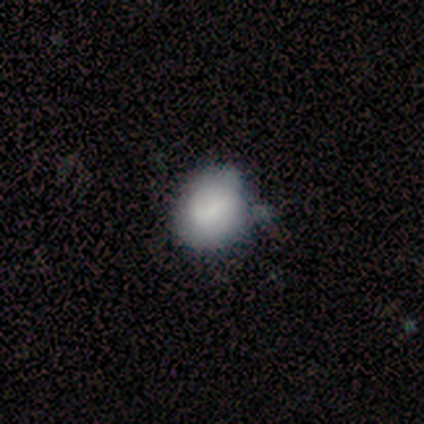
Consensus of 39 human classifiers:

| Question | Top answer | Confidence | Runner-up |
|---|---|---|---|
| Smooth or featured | smooth | 77% | featured or disk (21%) |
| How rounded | round | 70% | in between (27%) |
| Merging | minor disturbance | 34% | none (29%) |